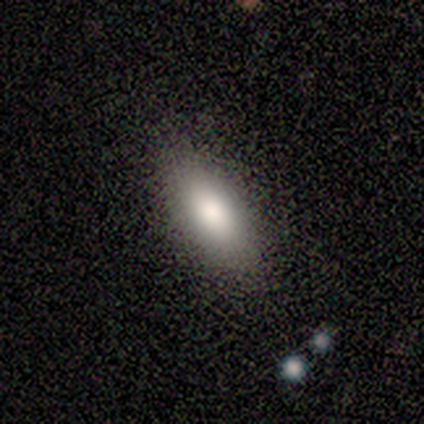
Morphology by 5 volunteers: type=smooth (80%); roundness=in between (75%); merging=none (80%).